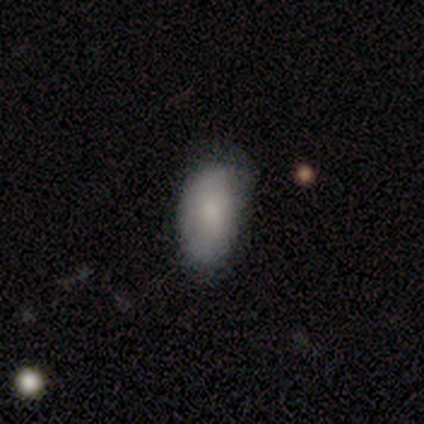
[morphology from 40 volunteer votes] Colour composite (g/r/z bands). It shows a smooth galaxy with no disk features (85%) that is in between round and cigar-shaped (97%). Merging: none (62%).